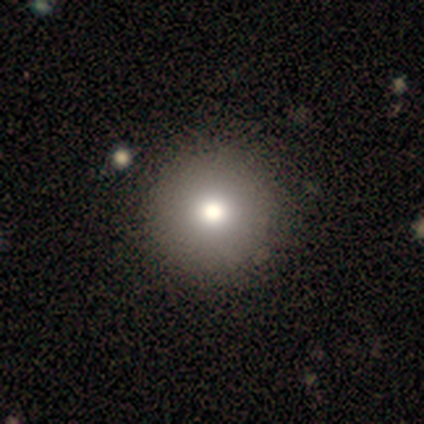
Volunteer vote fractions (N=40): Smooth or featured: smooth — 78% (star or artifact — 15%)
How rounded: round — 100%
Merging: none — 59% (major disturbance — 3%)